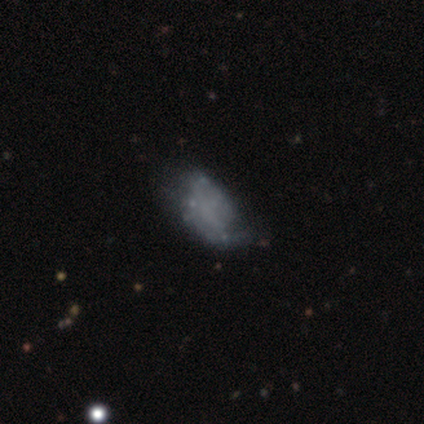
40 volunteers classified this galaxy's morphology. Volunteers were most divided on "merging": major disturbance: 27%, minor disturbance: 24%, none: 22%, merger: 0%. More confident: edge-on disk — no (100%); bulge size — none (91%); bar — no (87%); spiral arms — no (74%); smooth or featured — featured or disk (57%).